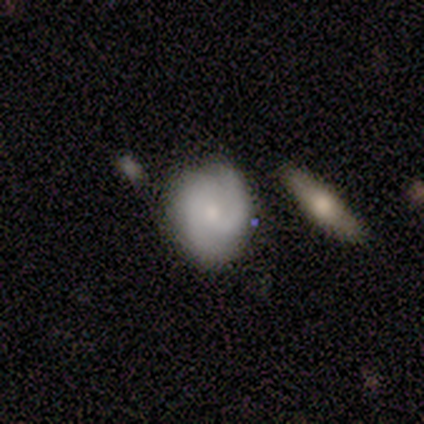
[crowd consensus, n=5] Smooth or featured?
  - featured or disk: 60% *
  - smooth: 40%
  - star or artifact: 0%
Edge-on disk?
  - no: 100% *
  - yes: 0%
Bar?
  - no: 67% *
  - weak: 33%
  - strong: 0%
Spiral arms?
  - yes: 100% *
  - no: 0%
Spiral winding?
  - tight: 67% *
  - medium: 33%
  - loose: 0%
Spiral arm count?
  - 2: 100% *
  - 1: 0%
  - 3: 0%
  - 4: 0%
  - more than 4: 0%
  - can't tell: 0%
Bulge size?
  - small: 67% *
  - moderate: 33%
  - dominant: 0%
  - large: 0%
  - none: 0%
Merging?
  - none: 100% *
  - minor disturbance: 0%
  - major disturbance: 0%
  - merger: 0%